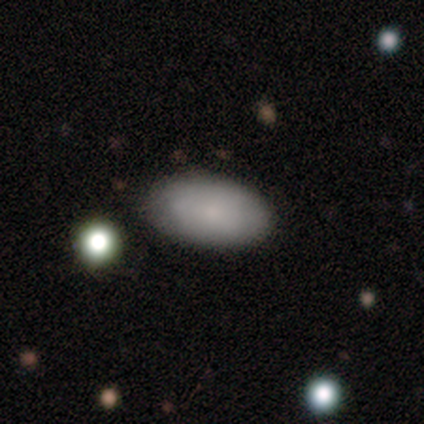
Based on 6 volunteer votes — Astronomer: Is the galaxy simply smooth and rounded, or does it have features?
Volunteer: smooth — 83%.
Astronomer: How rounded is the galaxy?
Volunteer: in between — 80%.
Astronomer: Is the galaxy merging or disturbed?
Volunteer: none — 67%.